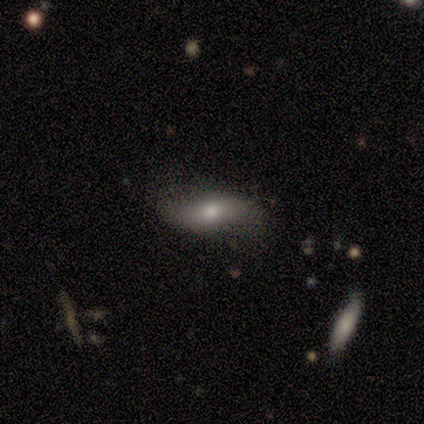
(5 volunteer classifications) Q: Smooth or featured?
A: featured or disk (60%); runner-up: smooth (20%)
Q: Edge-on disk?
A: no (67%); runner-up: yes (33%)
Q: Bar?
A: weak (50%); tied with: no (50%)
Q: Spiral arms?
A: no (100%)
Q: Bulge size?
A: moderate (100%)
Q: Merging?
A: none (75%); runner-up: minor disturbance (25%)